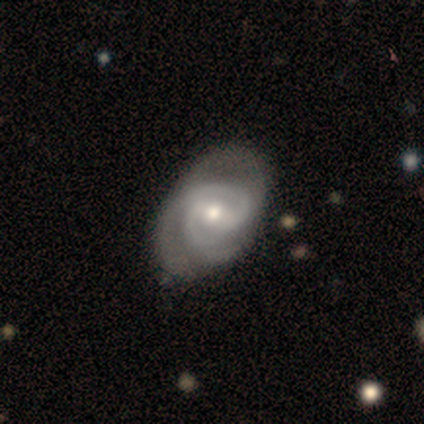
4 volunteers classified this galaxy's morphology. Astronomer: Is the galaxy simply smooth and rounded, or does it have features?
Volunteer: featured or disk — 100%.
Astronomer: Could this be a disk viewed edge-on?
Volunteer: no — 100%.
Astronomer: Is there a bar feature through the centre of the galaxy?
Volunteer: strong — 50%.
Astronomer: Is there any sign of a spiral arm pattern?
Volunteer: yes — 100%.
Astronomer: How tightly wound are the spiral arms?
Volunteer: tight — 50%, tied with medium at 50%.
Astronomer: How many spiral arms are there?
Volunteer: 1 — 25%, tied with 2, 3 and can't tell at 25%.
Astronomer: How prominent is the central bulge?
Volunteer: moderate — 50%, tied with small at 50%.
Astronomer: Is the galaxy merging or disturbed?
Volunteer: none — 100%.